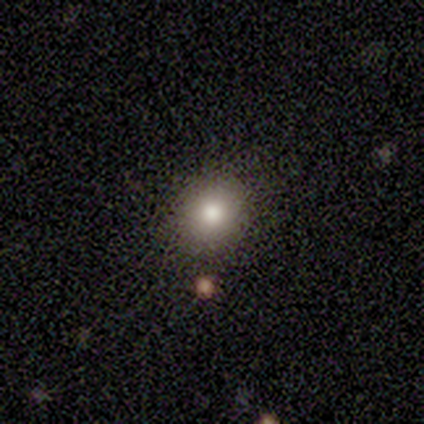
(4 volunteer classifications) Morphology: type=smooth (75%); roundness=in between (67%); merging=none (100%).